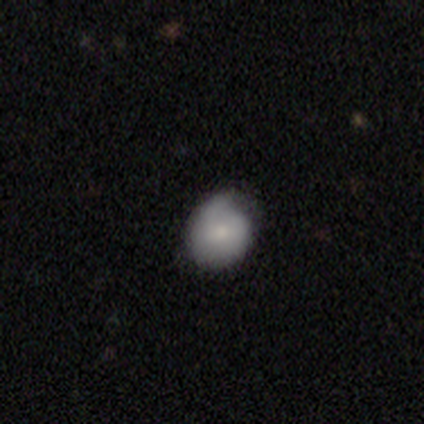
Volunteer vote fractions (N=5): smooth_or_featured: smooth (p=0.60) [alt: featured or disk p=0.40]
how_rounded: round (p=0.67) [alt: in between p=0.33]
merging: none (p=0.60) [alt: minor disturbance p=0.40]